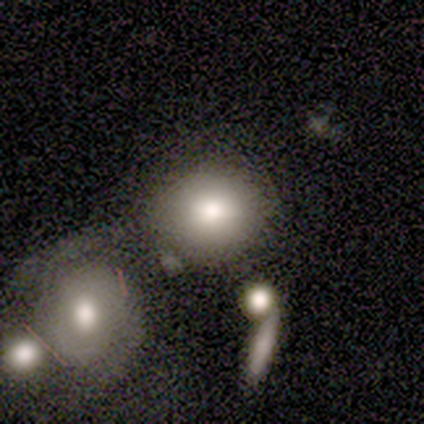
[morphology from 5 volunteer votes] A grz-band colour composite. It shows a smooth galaxy with no disk features (100%) that is in between round and cigar-shaped (60%). Merging: major disturbance (40%, tied with merger).